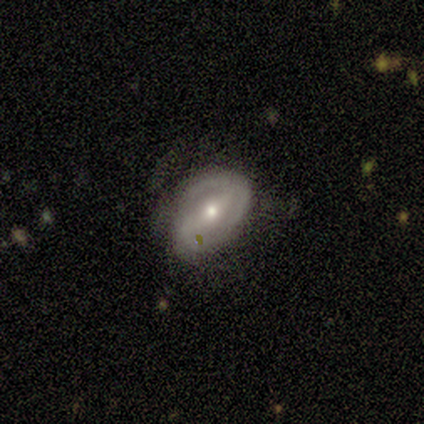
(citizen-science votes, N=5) A smooth galaxy with no disk features (60%) that is in between round and cigar-shaped (67%).

Vote fractions:
- Smooth or featured? smooth: 60% / featured or disk: 20% / star or artifact: 20%
- How rounded? in between: 67% / round: 33% / cigar-shaped: 0%
- Merging? minor disturbance: 50% / none: 25% / major disturbance: 25% / merger: 0%